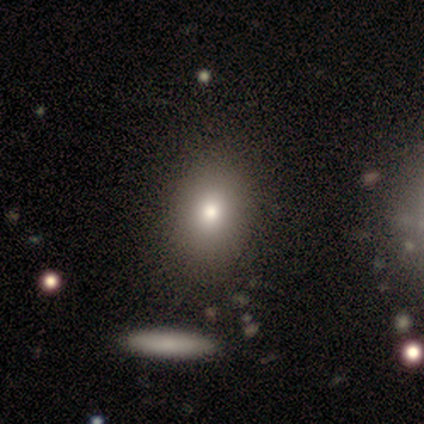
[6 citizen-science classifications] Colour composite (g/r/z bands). It shows a smooth galaxy with no disk features (50%) that is in between round and cigar-shaped (67%). Merging: none (75%).